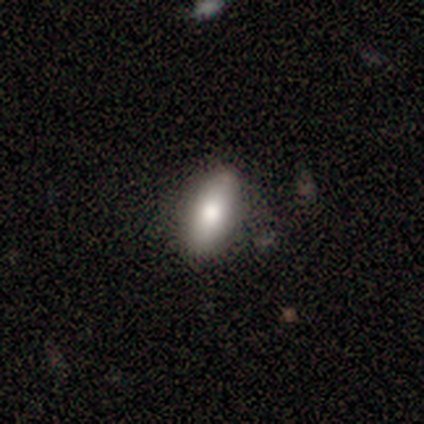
Smooth or featured?
  - smooth: 60% *
  - featured or disk: 40%
  - star or artifact: 0%
How rounded?
  - in between: 67% *
  - cigar-shaped: 33%
  - round: 0%
Merging?
  - none: 80% *
  - minor disturbance: 20%
  - major disturbance: 0%
  - merger: 0%